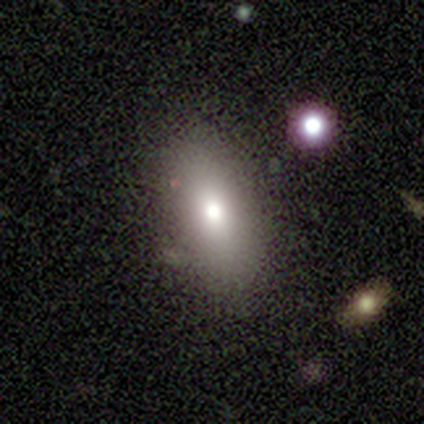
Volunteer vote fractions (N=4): This is clearly a smooth galaxy (100%). How rounded: likely in between (75%). Merging: possibly none (50%).